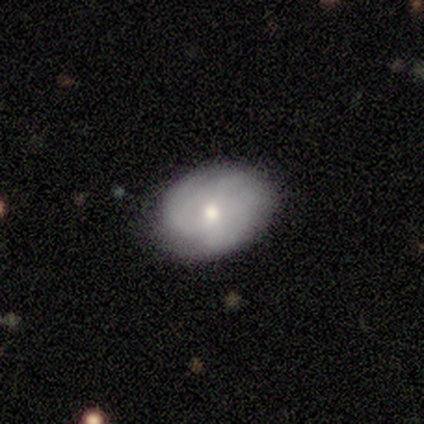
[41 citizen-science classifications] featured or disk 49%, smooth 44%, star or artifact 7%. Down the decision tree: edge-on disk — no (95%); bar — no (63%); spiral arms — yes (79%); spiral arm count — can't tell (47%); spiral winding — tight (60%); bulge size — moderate (53%); merging — none (71%).